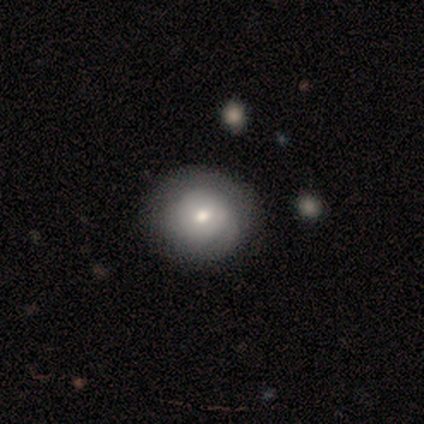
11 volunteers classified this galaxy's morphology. Smooth or featured? 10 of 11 (91%) said smooth. How rounded? 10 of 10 (100%) said round. Merging? 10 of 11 (91%) said none.